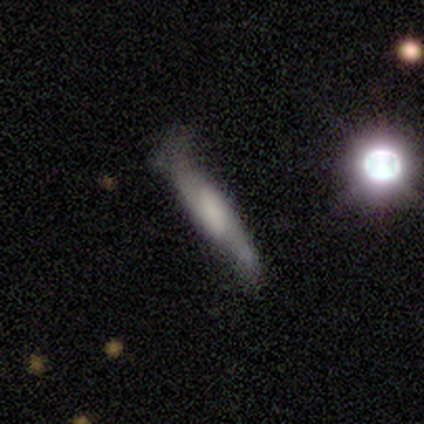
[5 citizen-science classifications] Smooth or featured? smooth (40%, tied with featured or disk)
How rounded? cigar-shaped (100%)
Merging? none (50%)